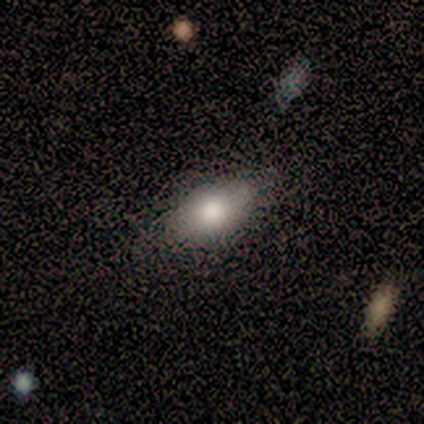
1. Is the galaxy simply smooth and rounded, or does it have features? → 100% smooth, 0% featured or disk, 0% star or artifact.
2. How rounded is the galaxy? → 83% in between, 17% round, 0% cigar-shaped.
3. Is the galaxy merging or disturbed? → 100% none, 0% minor disturbance, 0% major disturbance, 0% merger.